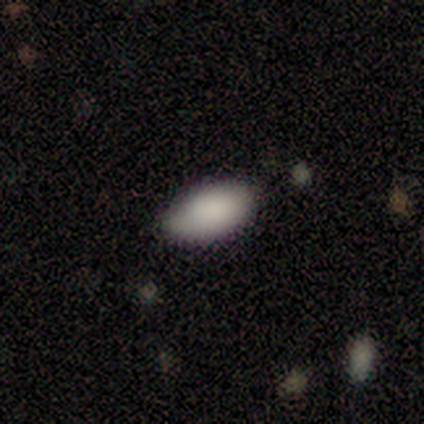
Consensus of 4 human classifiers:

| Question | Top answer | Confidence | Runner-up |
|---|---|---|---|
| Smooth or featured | smooth | 75% | star or artifact (25%) |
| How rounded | in between | 100% | — |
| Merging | none | 100% | — |